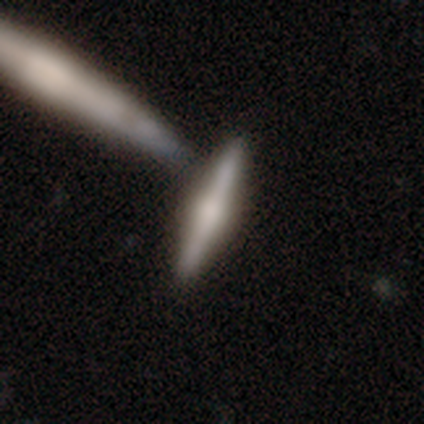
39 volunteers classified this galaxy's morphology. Q: Smooth or featured?
A: featured or disk (54%); runner-up: smooth (41%)
Q: Edge-on disk?
A: yes (95%); runner-up: no (5%)
Q: Edge-on bulge?
A: rounded (70%); runner-up: boxy (15%)
Q: Merging?
A: none (57%); runner-up: merger (35%)